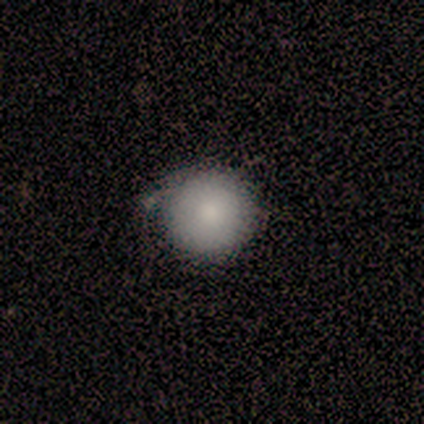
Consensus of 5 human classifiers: smooth 80%, featured or disk 20%, star or artifact 0%. Down the decision tree: how rounded — round (100%); merging — none (100%).